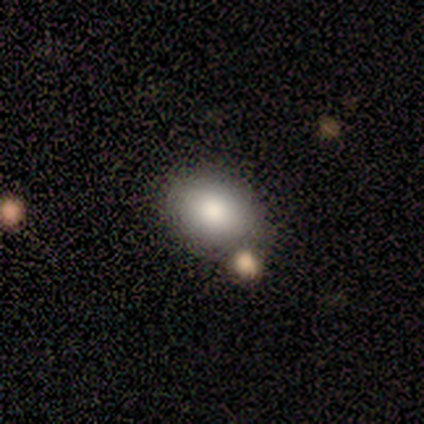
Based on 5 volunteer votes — Q: Smooth or featured?
A: smooth (80%); runner-up: featured or disk (20%)
Q: How rounded?
A: in between (75%); runner-up: round (25%)
Q: Merging?
A: none (60%); runner-up: major disturbance (20%)